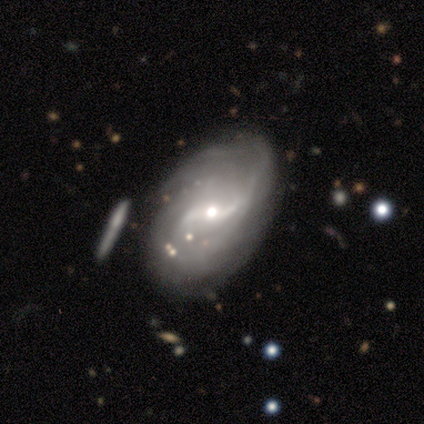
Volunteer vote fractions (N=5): Smooth or featured?
  - featured or disk: 100% *
  - smooth: 0%
  - star or artifact: 0%
Edge-on disk?
  - no: 100% *
  - yes: 0%
Bar?
  - weak: 80% *
  - strong: 20%
  - no: 0%
Spiral arms?
  - yes: 100% *
  - no: 0%
Spiral winding?
  - medium: 60% *
  - loose: 40%
  - tight: 0%
Spiral arm count?
  - can't tell: 60% *
  - 1: 40%
  - 2: 0%
  - 3: 0%
  - 4: 0%
  - more than 4: 0%
Bulge size?
  - small: 60% *
  - moderate: 40%
  - dominant: 0%
  - large: 0%
  - none: 0%
Merging?
  - none: 60% *
  - minor disturbance: 40%
  - major disturbance: 0%
  - merger: 0%